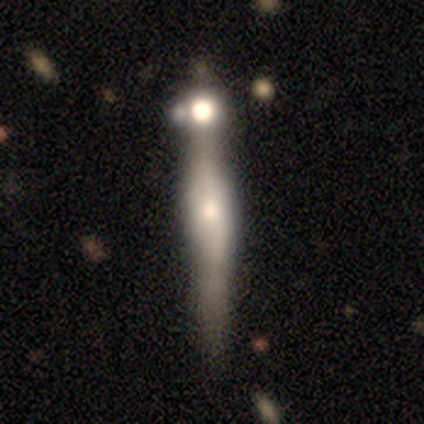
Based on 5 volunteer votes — Smooth or featured? 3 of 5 (60%) said featured or disk. Edge-on disk? 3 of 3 (100%) said yes. Edge-on bulge? 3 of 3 (100%) said rounded. Merging? 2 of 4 (50%) said merger.